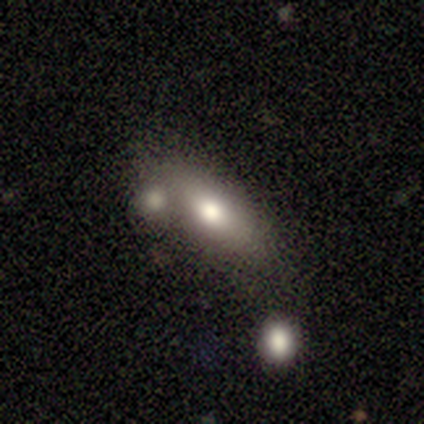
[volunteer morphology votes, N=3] Smooth or featured? featured or disk (67%)
Edge-on disk? no (100%)
Bar? no (100%)
Spiral arms? no (100%)
Bulge size? moderate (50%, tied with small)
Merging? none (67%)